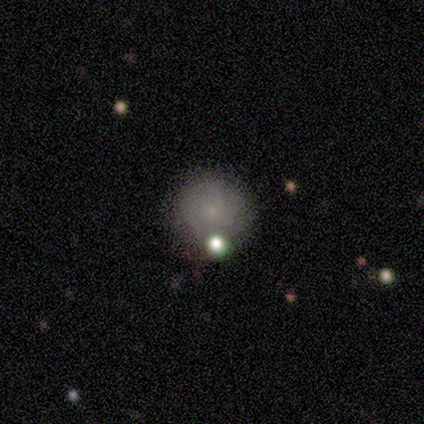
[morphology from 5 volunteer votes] A smooth galaxy with no disk features (40%, tied with featured or disk) that is round (100%).

Vote fractions:
- Smooth or featured? smooth: 40% (tied) / featured or disk: 40% (tied) / star or artifact: 20%
- How rounded? round: 100% / in between: 0% / cigar-shaped: 0%
- Merging? none: 50% / minor disturbance: 25% / major disturbance: 25% / merger: 0%